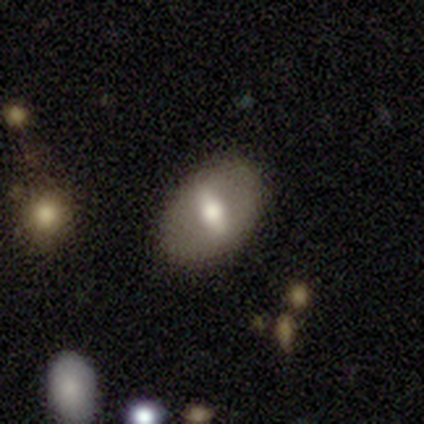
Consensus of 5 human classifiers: Smooth or featured?
  - smooth: 60% *
  - featured or disk: 40%
  - star or artifact: 0%
How rounded?
  - in between: 67% *
  - round: 33%
  - cigar-shaped: 0%
Merging?
  - none: 80% *
  - minor disturbance: 20%
  - major disturbance: 0%
  - merger: 0%